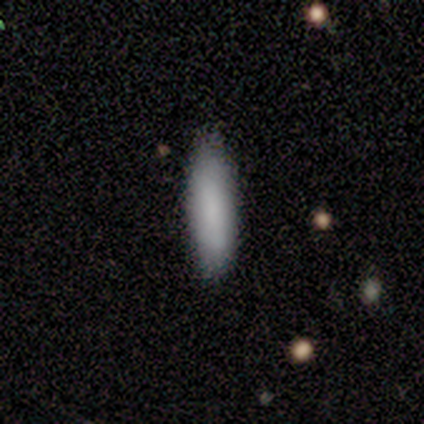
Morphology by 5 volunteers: Smooth or featured: smooth — 60% (featured or disk — 40%)
How rounded: cigar-shaped — 67% (in between — 33%)
Merging: none — 100%